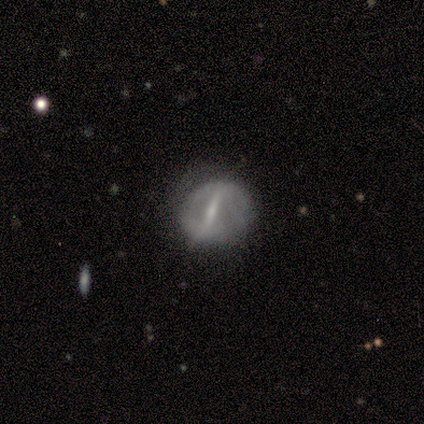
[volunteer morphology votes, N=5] type=featured or disk (60%); edge-on=no (67%); bar=strong (100%); spiral arms=no (100%); bulge=moderate (100%); merging=none (60%).